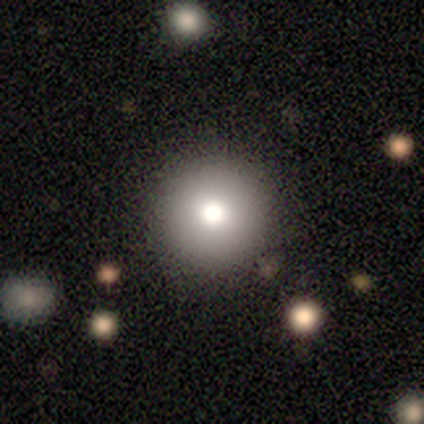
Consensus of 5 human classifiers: smooth_or_featured: smooth (p=0.40) [tied with: featured or disk p=0.40]
how_rounded: round (p=1.00)
merging: none (p=1.00)